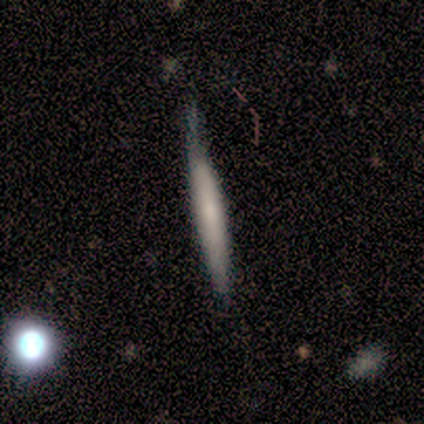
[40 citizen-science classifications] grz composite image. It shows a smooth galaxy with no disk features (57%) that is cigar-shaped (100%). Merging: none (66%).